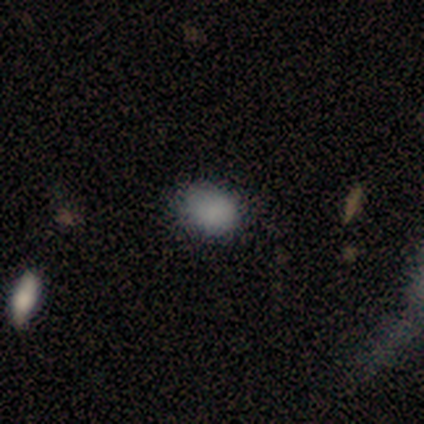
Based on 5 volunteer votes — Overall: smooth (100%). How rounded: in between (60%; round 40%). Merging: none (60%; minor disturbance 20%).